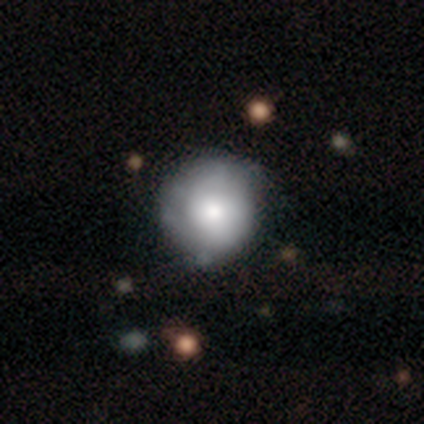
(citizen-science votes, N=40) smooth-or-featured: smooth: 65% | featured or disk: 30% | star or artifact: 5%
  how-rounded: round: 92% | in between: 8% | cigar-shaped: 0%
  merging: none: 37% | minor disturbance: 32% | major disturbance: 5% | merger: 0%